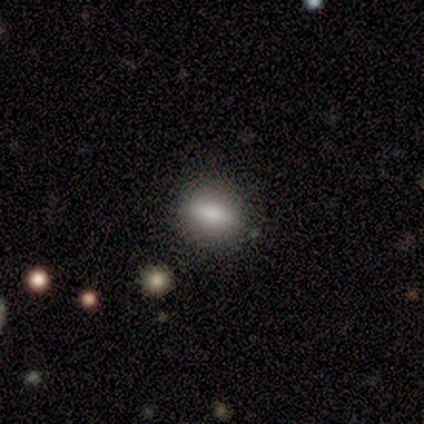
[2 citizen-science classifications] smooth 100%, featured or disk 0%, star or artifact 0%. Down the decision tree: how rounded — round (50%, tied with in between); merging — none (100%).